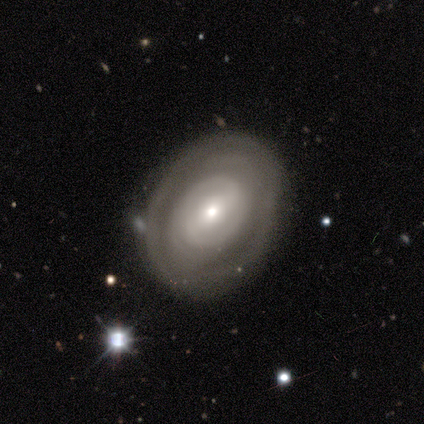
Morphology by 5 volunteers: This is clearly a featured or disk galaxy (80%). It is clearly not viewed edge-on (100%). Bar: likely weak (75%). Spiral arm pattern: clearly yes (100%). Spiral arm count: possibly 2 (50%, tied with can't tell). Spiral winding: clearly tight (100%). Central bulge: possibly moderate (50%). Merging: clearly none (80%).